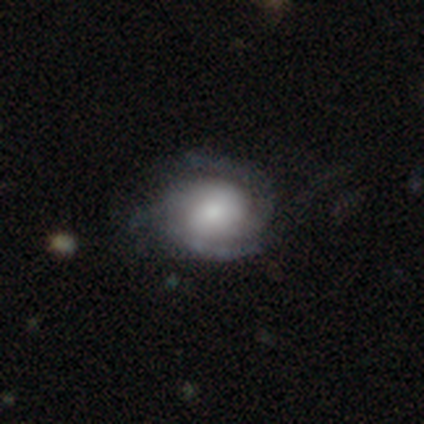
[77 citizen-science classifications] Volunteers were most divided on "bulge size": small: 30%, moderate: 28%, large: 23%, dominant: 15%, none: 5%. Remaining: edge-on disk — no (100%); spiral arms — yes (95%); bar — no (80%); smooth or featured — featured or disk (79%); spiral winding — tight (60%); spiral arm count — 2 (45%); merging — none (34%).